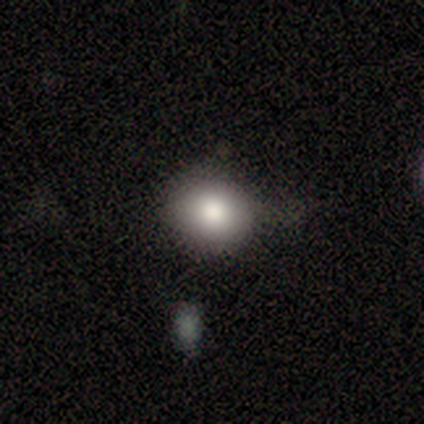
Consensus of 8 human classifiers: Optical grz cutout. It shows a smooth galaxy with no disk features (50%) that is round (75%). Merging: none (83%).